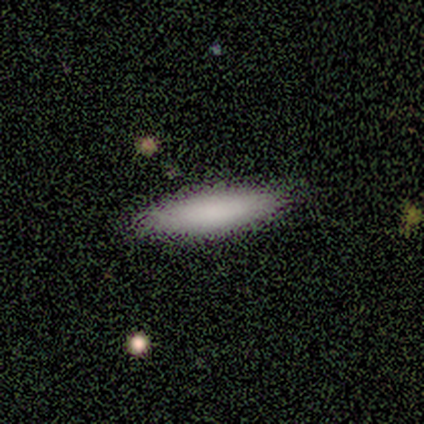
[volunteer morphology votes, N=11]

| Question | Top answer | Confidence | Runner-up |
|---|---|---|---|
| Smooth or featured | smooth | 91% | featured or disk (9%) |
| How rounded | cigar-shaped | 80% | in between (20%) |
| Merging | none | 82% | major disturbance (9%) |